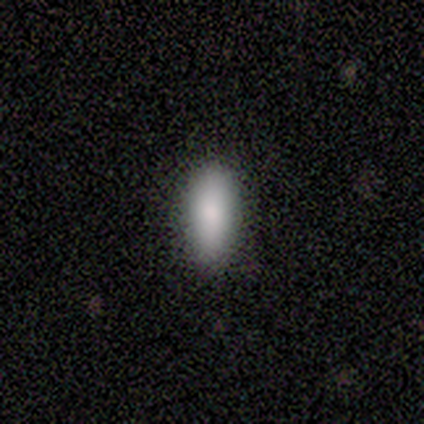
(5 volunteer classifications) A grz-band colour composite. It shows a smooth galaxy with no disk features (80%) that is in between round and cigar-shaped (75%). Merging: none (100%).